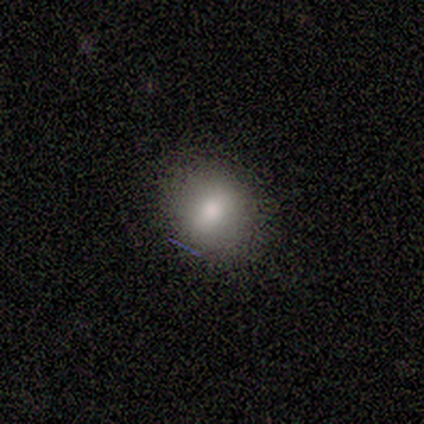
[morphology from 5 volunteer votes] Smooth or featured? smooth (100%)
How rounded? round (80%)
Merging? none (80%)